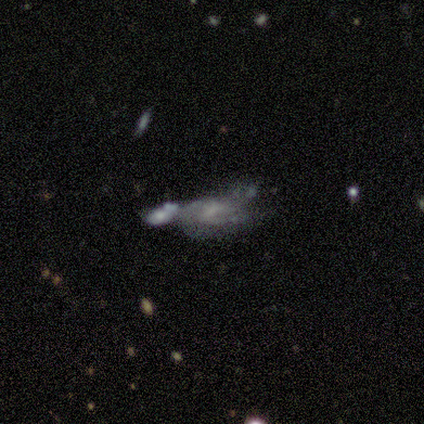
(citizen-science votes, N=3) Smooth or featured? featured or disk (100%)
Edge-on disk? no (100%)
Bar? no (67%)
Spiral arms? no (67%)
Bulge size? none (67%)
Merging? none (33%, tied with major disturbance and merger)